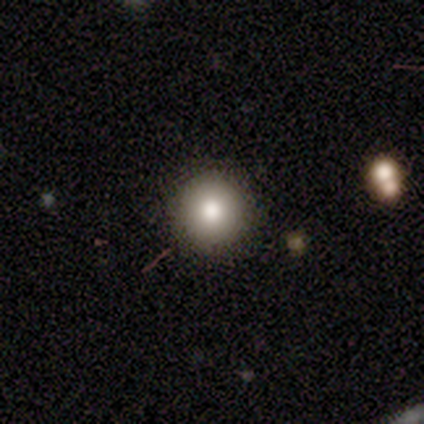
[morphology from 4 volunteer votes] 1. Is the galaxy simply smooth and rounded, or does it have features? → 100% smooth, 0% featured or disk, 0% star or artifact.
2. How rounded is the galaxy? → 100% round, 0% in between, 0% cigar-shaped.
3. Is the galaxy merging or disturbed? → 100% none, 0% minor disturbance, 0% major disturbance, 0% merger.